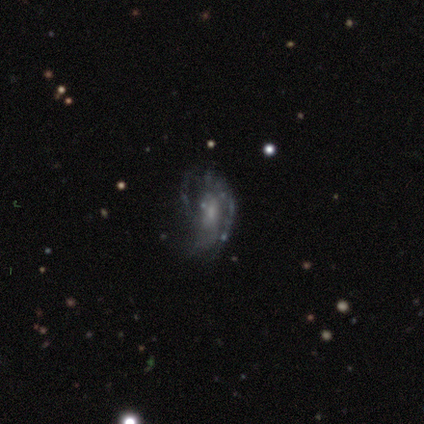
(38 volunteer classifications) featured or disk 74%, smooth 13%, star or artifact 13%. Down the decision tree: edge-on disk — no (100%); bar — no (82%); spiral arms — yes (64%); spiral arm count — can't tell (67%); spiral winding — loose (44%); bulge size — small (57%); merging — none (42%).